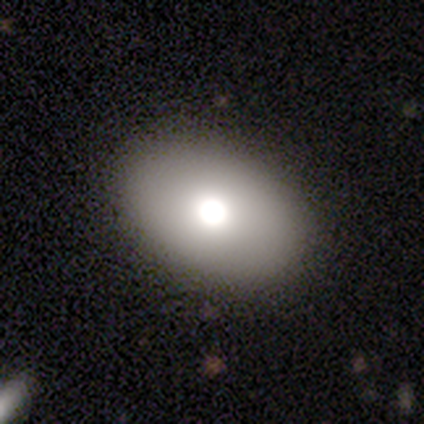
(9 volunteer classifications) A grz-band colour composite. It shows a smooth galaxy with no disk features (89%) that is in between round and cigar-shaped (62%). Merging: none (75%).